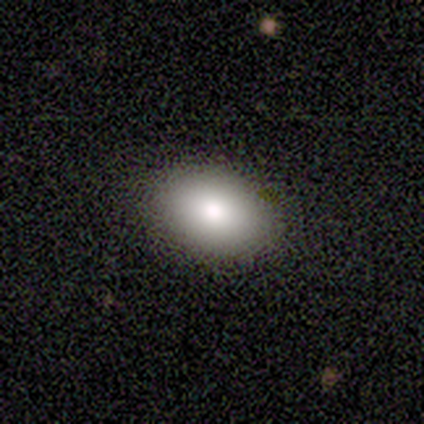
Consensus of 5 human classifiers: A smooth galaxy with no disk features (60%) that is round (67%). Merging: none (100%).